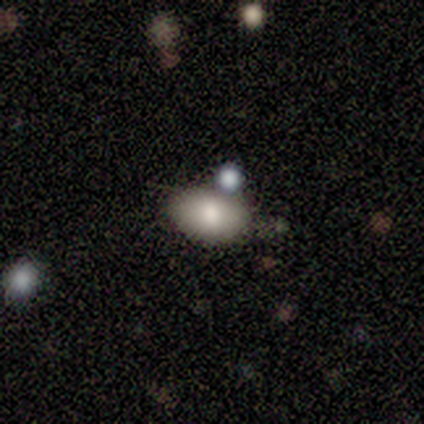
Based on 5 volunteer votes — smooth 80%, featured or disk 20%, star or artifact 0%. Down the decision tree: how rounded — in between (100%); merging — minor disturbance (60%).